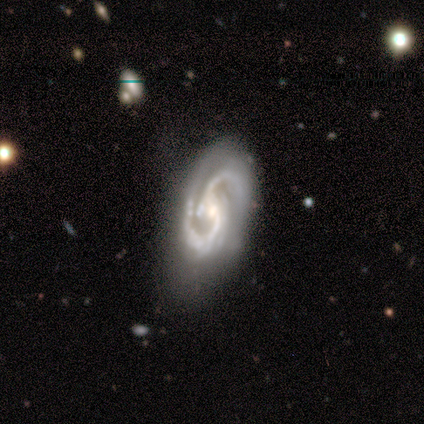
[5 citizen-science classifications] Smooth or featured? 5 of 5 (100%) said featured or disk. Edge-on disk? 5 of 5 (100%) said no. Bar? 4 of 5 (80%) said strong. Spiral arms? 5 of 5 (100%) said yes. Spiral winding? 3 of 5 (60%) said medium. Spiral arm count? 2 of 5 (40%, tied with 3) said 2. Bulge size? 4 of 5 (80%) said moderate. Merging? 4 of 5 (80%) said none.